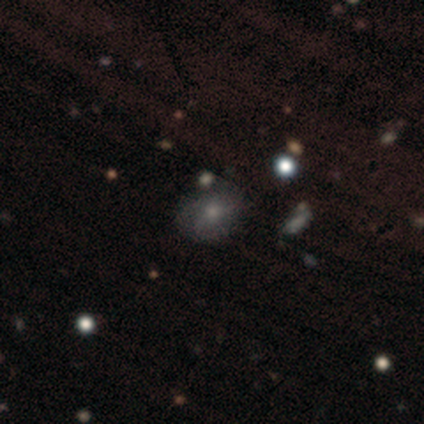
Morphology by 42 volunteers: Q: Smooth or featured?
A: smooth (60%); runner-up: featured or disk (26%)
Q: How rounded?
A: in between (52%); runner-up: round (48%)
Q: Merging?
A: none (75%); runner-up: minor disturbance (17%)